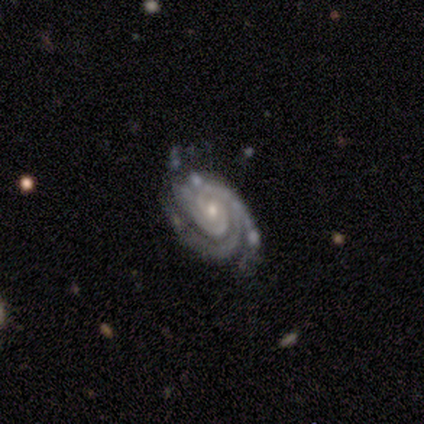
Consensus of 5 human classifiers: Q: Smooth or featured?
A: featured or disk (100%)
Q: Edge-on disk?
A: no (100%)
Q: Bar?
A: no (80%); runner-up: strong (20%)
Q: Spiral arms?
A: yes (100%)
Q: Spiral winding?
A: tight (60%); runner-up: medium (40%)
Q: Spiral arm count?
A: 3 (60%); runner-up: 4 (40%)
Q: Bulge size?
A: moderate (60%); runner-up: small (40%)
Q: Merging?
A: none (40%); tied with: minor disturbance (40%)